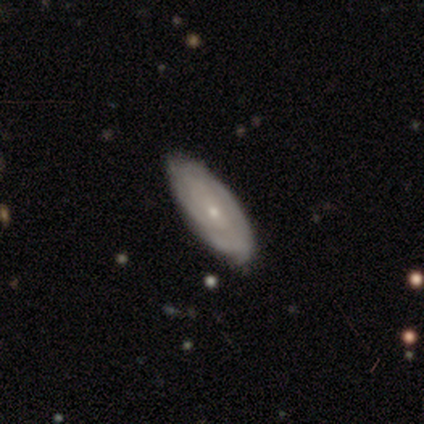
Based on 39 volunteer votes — Morphology: type=featured or disk (69%); edge-on=no (89%); bar=no (79%); spiral arms=yes (75%); winding=tight (56%); arm count=can't tell (78%); bulge=small (83%); merging=none (70%).